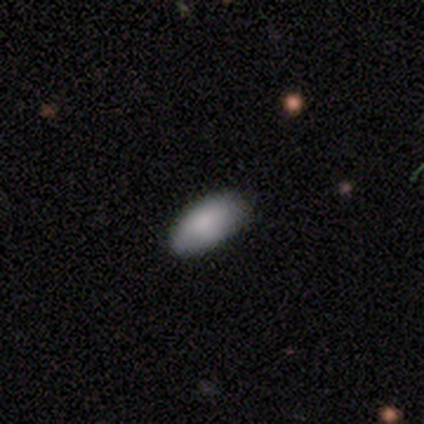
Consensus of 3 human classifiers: Smooth or featured?
  - smooth: 100% *
  - featured or disk: 0%
  - star or artifact: 0%
How rounded?
  - in between: 100% *
  - round: 0%
  - cigar-shaped: 0%
Merging?
  - none: 100% *
  - minor disturbance: 0%
  - major disturbance: 0%
  - merger: 0%